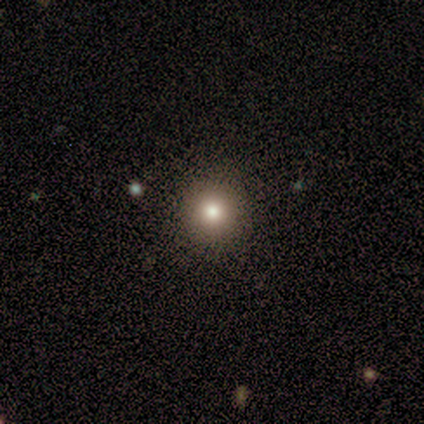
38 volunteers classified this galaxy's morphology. smooth 71%, star or artifact 21%, featured or disk 8%. Down the decision tree: how rounded — round (100%); merging — none (97%).